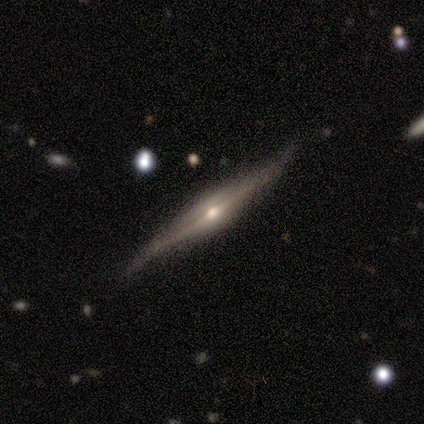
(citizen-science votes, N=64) A featured or disk galaxy (91%) viewed edge-on (100%) with a rounded central bulge (88%). Merging: none (72%).